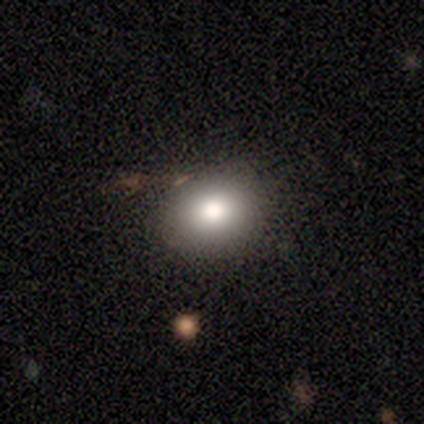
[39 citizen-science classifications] smooth-or-featured: smooth: 87% | featured or disk: 8% | star or artifact: 5%
  how-rounded: in between: 53% | round: 47% | cigar-shaped: 0%
  merging: none: 84% | minor disturbance: 11% | major disturbance: 3% | merger: 3%